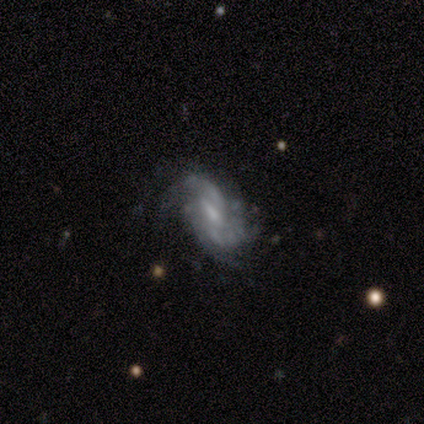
Smooth or featured?
  - smooth: 50% * (tied)
  - featured or disk: 50% * (tied)
  - star or artifact: 0%
How rounded?
  - in between: 100% *
  - round: 0%
  - cigar-shaped: 0%
Merging?
  - none: 75% *
  - minor disturbance: 25%
  - major disturbance: 0%
  - merger: 0%